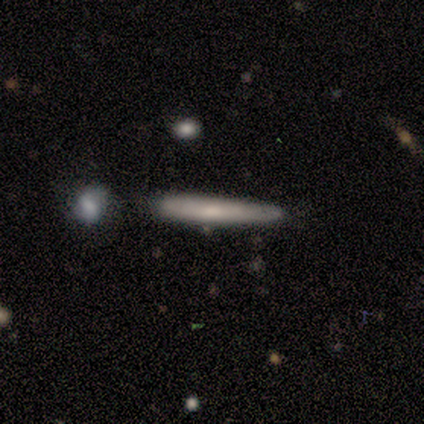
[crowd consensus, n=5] smooth_or_featured: smooth (p=0.60) [alt: featured or disk p=0.40]
how_rounded: cigar-shaped (p=1.00)
merging: none (p=0.60) [alt: minor disturbance p=0.20]